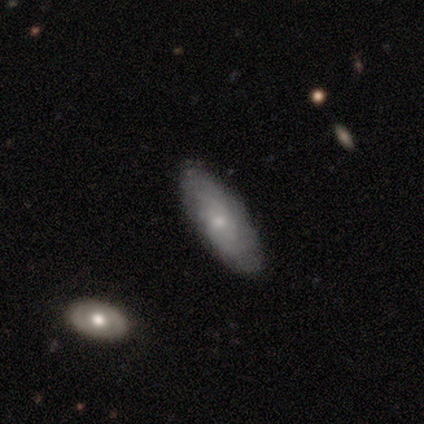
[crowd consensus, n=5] A featured or disk galaxy (60%) viewed edge-on (67%) with no central bulge (50%, tied with rounded). Merging: none (60%).